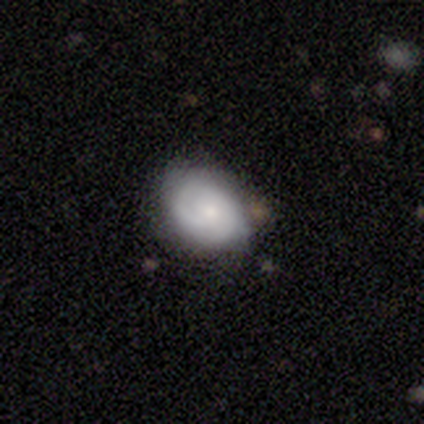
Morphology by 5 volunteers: This is likely a smooth galaxy (60%). How rounded: likely round (67%). Merging: likely none (75%).